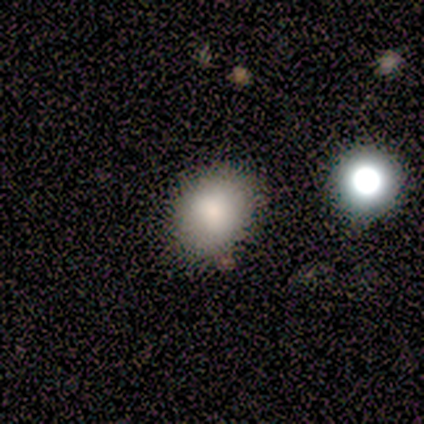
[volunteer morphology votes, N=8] smooth 88%, star or artifact 12%, featured or disk 0%. Down the decision tree: how rounded — round (57%); merging — none (86%).